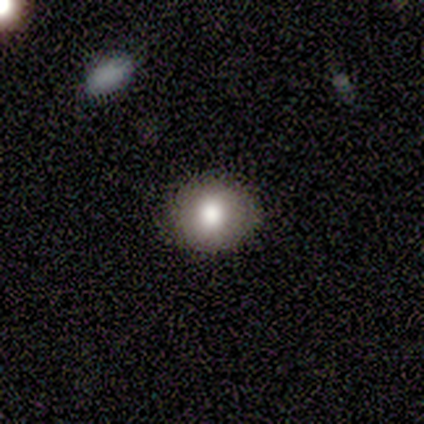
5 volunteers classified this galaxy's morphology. Smooth or featured?
  - smooth: 80% *
  - featured or disk: 20%
  - star or artifact: 0%
How rounded?
  - round: 100% *
  - in between: 0%
  - cigar-shaped: 0%
Merging?
  - none: 100% *
  - minor disturbance: 0%
  - major disturbance: 0%
  - merger: 0%